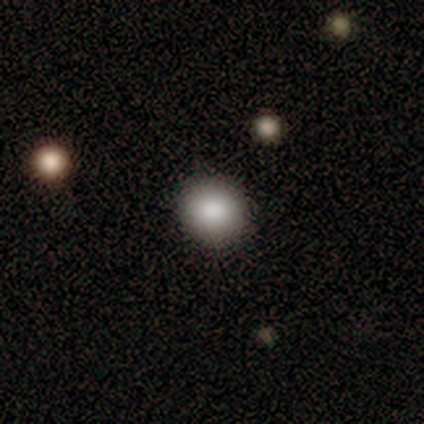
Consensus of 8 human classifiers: A smooth galaxy with no disk features (75%) that is round (83%). Merging: none (86%).